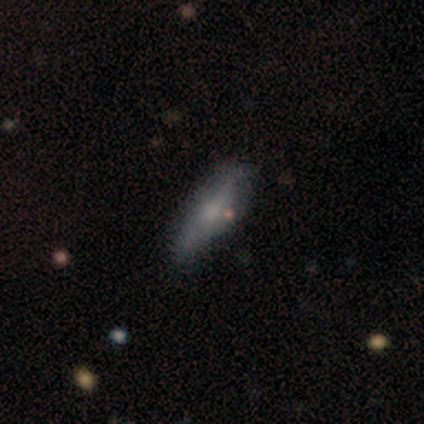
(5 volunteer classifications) A smooth galaxy with no disk features (80%) that is cigar-shaped (75%).

Vote fractions:
- Smooth or featured? smooth: 80% / featured or disk: 20% / star or artifact: 0%
- How rounded? cigar-shaped: 75% / in between: 25% / round: 0%
- Merging? none: 60% / minor disturbance: 40% / major disturbance: 0% / merger: 0%